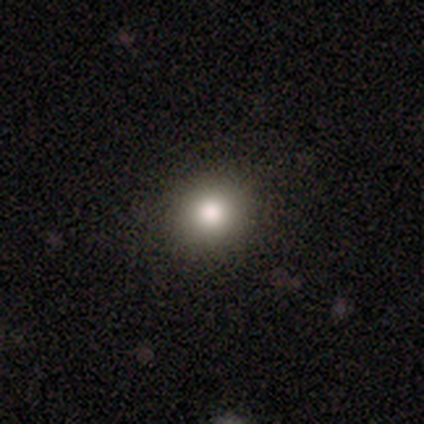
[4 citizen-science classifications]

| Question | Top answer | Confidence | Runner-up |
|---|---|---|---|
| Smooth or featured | smooth | 75% | star or artifact (25%) |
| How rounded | round | 100% | — |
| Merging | none | 100% | — |